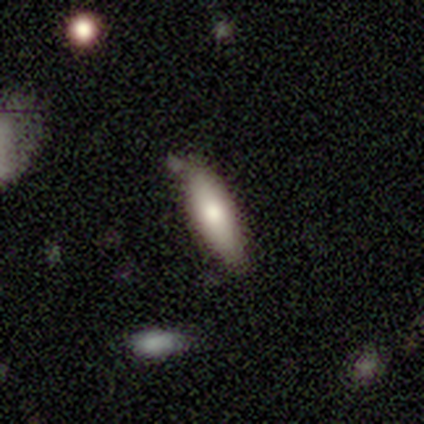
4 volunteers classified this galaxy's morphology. Smooth or featured? smooth (100%)
How rounded? cigar-shaped (75%)
Merging? none (75%)